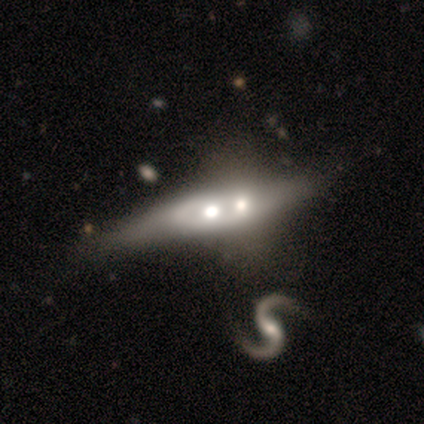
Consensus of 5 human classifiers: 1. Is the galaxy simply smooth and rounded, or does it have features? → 60% featured or disk, 40% smooth, 0% star or artifact.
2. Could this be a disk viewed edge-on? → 67% no, 33% yes.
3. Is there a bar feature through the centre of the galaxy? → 100% no, 0% strong, 0% weak.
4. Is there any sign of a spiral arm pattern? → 100% no, 0% yes.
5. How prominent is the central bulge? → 50% large (tied), 50% moderate (tied), 0% dominant, 0% small, 0% none.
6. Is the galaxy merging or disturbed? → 60% merger, 20% none, 20% minor disturbance, 0% major disturbance.